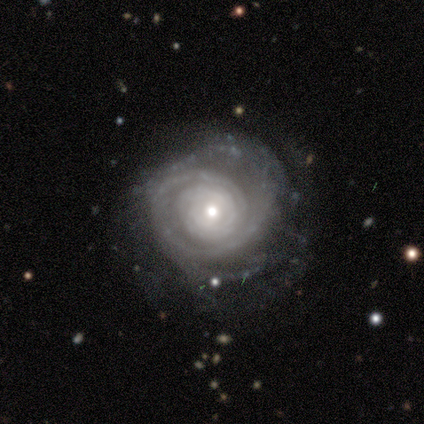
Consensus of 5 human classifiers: smooth-or-featured: featured or disk: 80% | smooth: 20% | star or artifact: 0%
  disk-edge-on: no: 100% | yes: 0%
    bar: no: 50% | strong: 25% | weak: 25%
    has-spiral-arms: yes: 100% | no: 0%
      spiral-winding: tight: 100% | medium: 0% | loose: 0%
      spiral-arm-count: can't tell: 50% | 1: 25% | 3: 25% | 2: 0% | 4: 0% | more than 4: 0%
    bulge-size: moderate: 50% (tied) | small: 50% (tied) | dominant: 0% | large: 0% | none: 0%
  merging: none: 60% | major disturbance: 40% | minor disturbance: 0% | merger: 0%